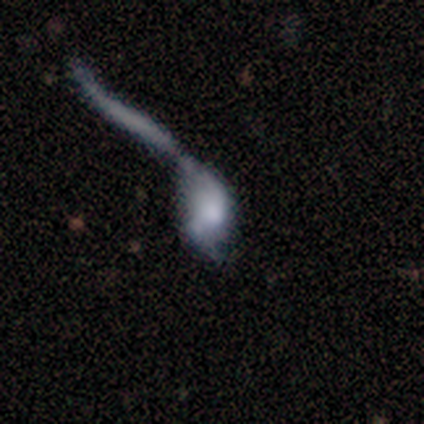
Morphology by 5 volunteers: Smooth or featured: smooth — 80% (featured or disk — 20%)
How rounded: in between — 100%
Merging: major disturbance — 40% (tied with merger — 40%)